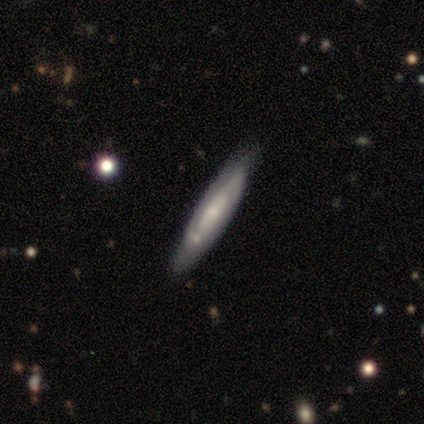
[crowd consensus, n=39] Volunteers were most divided on "smooth or featured": smooth: 51%, featured or disk: 38%, star or artifact: 10%. More confident: merging — none (91%); how rounded — cigar-shaped (85%).